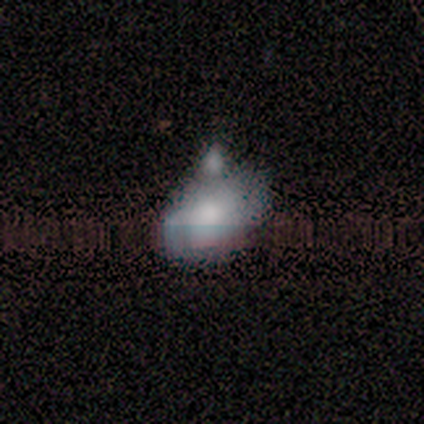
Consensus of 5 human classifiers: This appears to be a smooth galaxy with no disk features (60%) that is in between round and cigar-shaped (100%). Merging: none (40%, tied with major disturbance).